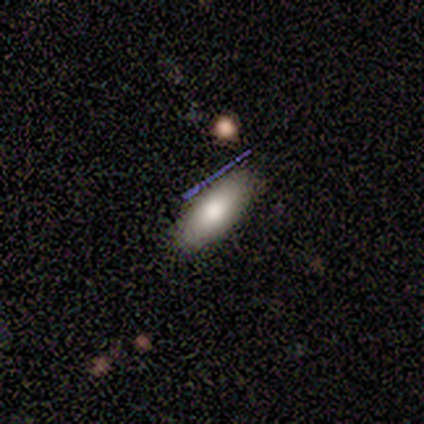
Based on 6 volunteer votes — A smooth galaxy with no disk features (83%) that is in between round and cigar-shaped (80%).

Vote fractions:
- Smooth or featured? smooth: 83% / star or artifact: 17% / featured or disk: 0%
- How rounded? in between: 80% / cigar-shaped: 20% / round: 0%
- Merging? none: 80% / minor disturbance: 20% / major disturbance: 0% / merger: 0%